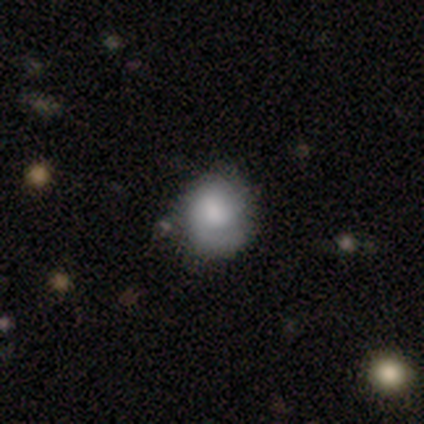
smooth 50% (tied), featured or disk 50% (tied), star or artifact 0%. Down the decision tree: how rounded — round (100%); merging — minor disturbance (50%).